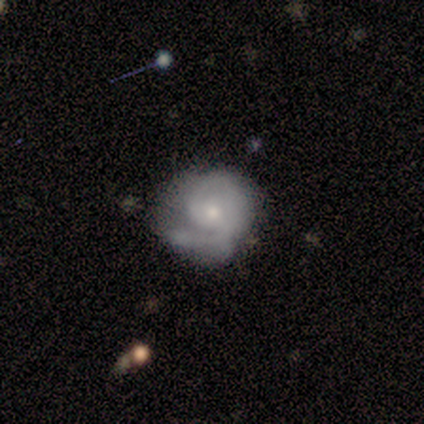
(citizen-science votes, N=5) This appears to be a featured or disk galaxy (80%) with a weak bar (50%, tied with no), 1 (33%, tied with 2 and can't tell) medium (67%) spiral arms (75%) and a small central bulge (75%). Merging: major disturbance (50%).